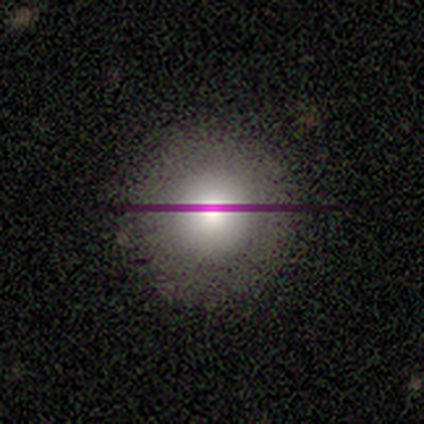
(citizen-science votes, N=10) smooth 60%, featured or disk 20%, star or artifact 20%. Down the decision tree: how rounded — round (100%); merging — none (100%).